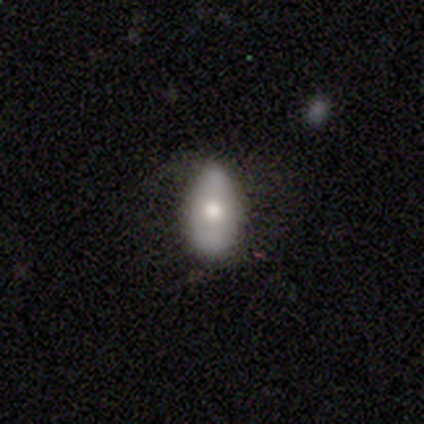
Volunteers were most divided on "merging": minor disturbance: 50%, none: 25%, major disturbance: 25%, merger: 0%. More confident: how rounded — in between (100%); smooth or featured — smooth (75%).